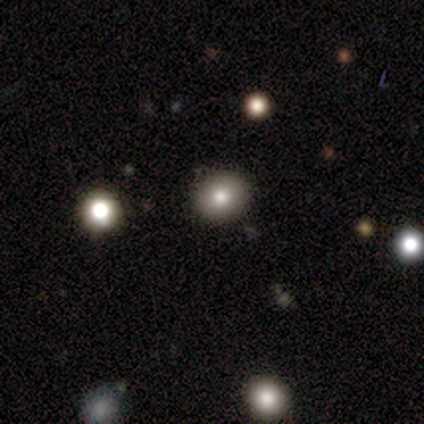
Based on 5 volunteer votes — Smooth or featured? 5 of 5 (100%) said smooth. How rounded? 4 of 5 (80%) said round. Merging? 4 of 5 (80%) said none.